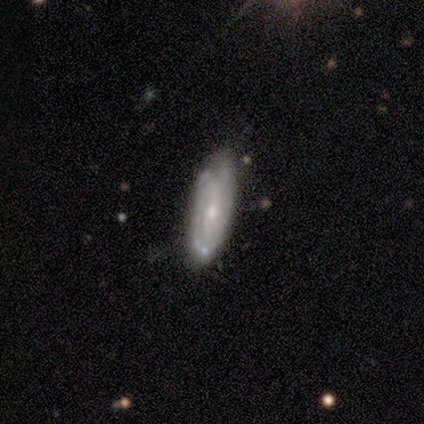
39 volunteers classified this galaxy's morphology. smooth_or_featured: featured or disk (p=0.72) [alt: smooth p=0.26]
disk_edge_on: no (p=0.82) [alt: yes p=0.18]
bar: no (p=0.57) [alt: weak p=0.35]
has_spiral_arms: yes (p=0.83) [alt: no p=0.17]
spiral_winding: tight (p=0.53) [alt: loose p=0.26]
spiral_arm_count: 2 (p=0.42) [tied with: can't tell p=0.42]
bulge_size: small (p=0.57) [alt: moderate p=0.43]
merging: none (p=0.76) [alt: minor disturbance p=0.16]